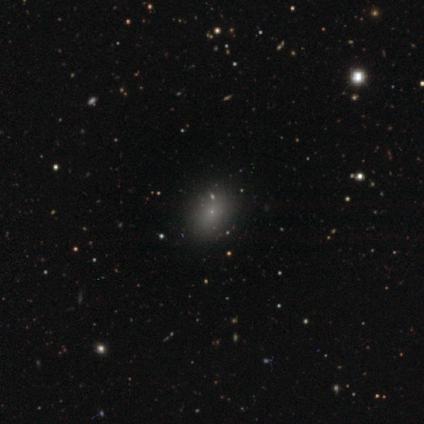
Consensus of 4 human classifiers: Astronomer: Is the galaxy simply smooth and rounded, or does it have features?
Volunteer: smooth — 75%.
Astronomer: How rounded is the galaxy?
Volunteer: in between — 100%.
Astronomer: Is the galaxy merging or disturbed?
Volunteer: none — 100%.